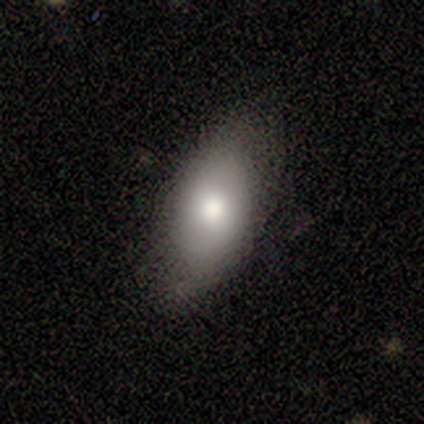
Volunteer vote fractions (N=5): This appears to be a smooth galaxy with no disk features (80%) that is in between round and cigar-shaped (75%). Merging: none (80%).